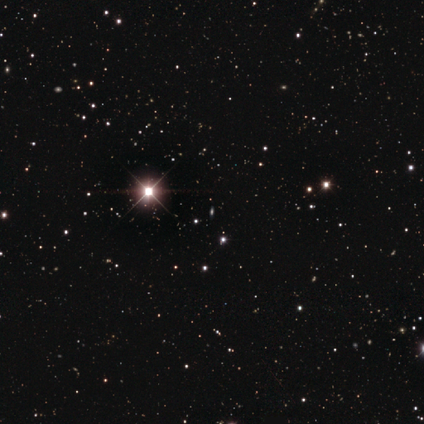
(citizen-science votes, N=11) A star or artifact, not a galaxy (100%).

Vote fractions:
- Smooth or featured? star or artifact: 100% / smooth: 0% / featured or disk: 0%